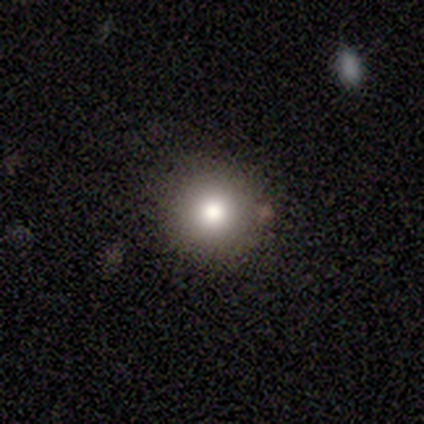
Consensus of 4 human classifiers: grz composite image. It shows a smooth galaxy with no disk features (75%) that is round (100%). Merging: none (100%).